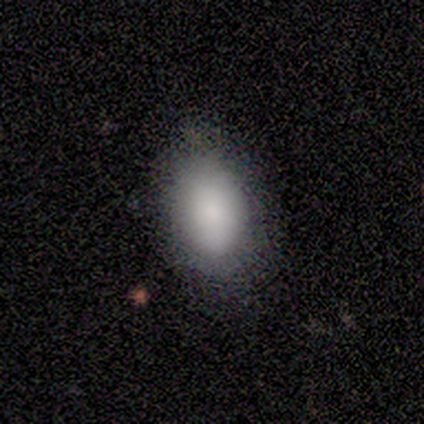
A smooth galaxy with no disk features (100%) that is in between round and cigar-shaped (100%). Merging: none (100%).